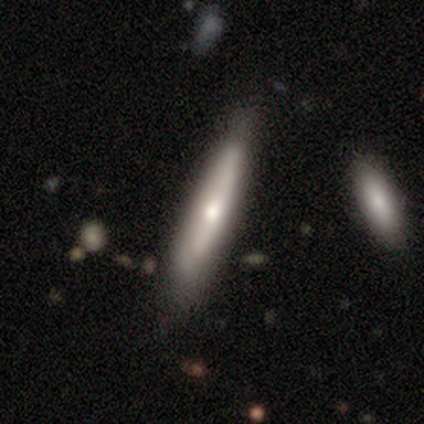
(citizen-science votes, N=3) A featured or disk galaxy (100%) viewed edge-on (100%) with no central bulge (67%). Merging: none (100%).